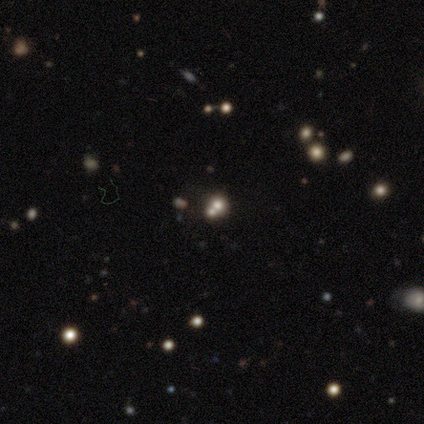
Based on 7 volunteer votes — Smooth or featured?
  - smooth: 57% *
  - star or artifact: 29%
  - featured or disk: 14%
How rounded?
  - round: 75% *
  - in between: 25%
  - cigar-shaped: 0%
Merging?
  - none: 60% *
  - minor disturbance: 20%
  - merger: 20%
  - major disturbance: 0%